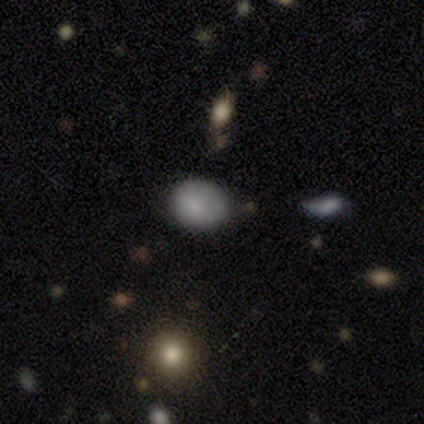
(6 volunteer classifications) Smooth or featured?
  - smooth: 83% *
  - featured or disk: 17%
  - star or artifact: 0%
How rounded?
  - in between: 100% *
  - round: 0%
  - cigar-shaped: 0%
Merging?
  - none: 67% *
  - minor disturbance: 17%
  - merger: 17%
  - major disturbance: 0%